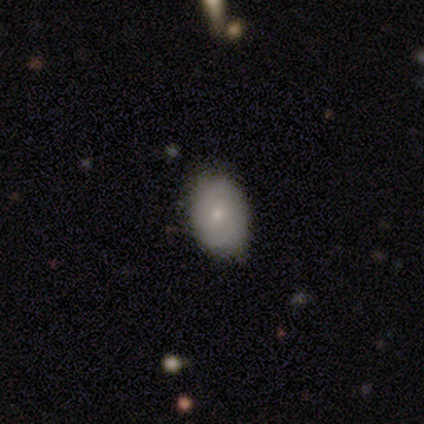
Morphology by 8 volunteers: Overall: smooth (62%; featured or disk 25%). How rounded: in between (100%). Merging: none (71%).